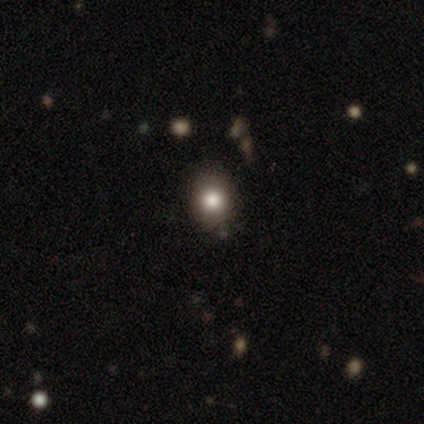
smooth_or_featured: smooth (p=0.88) [alt: star or artifact p=0.12]
how_rounded: in between (p=0.71) [alt: round p=0.29]
merging: none (p=0.71) [alt: minor disturbance p=0.29]